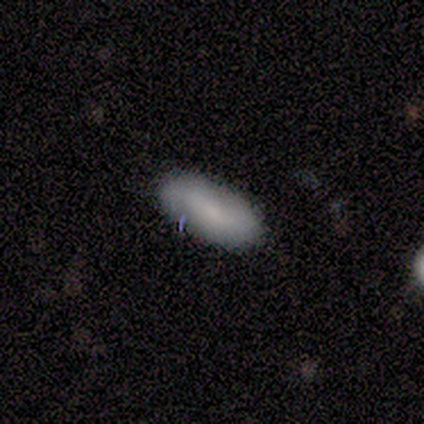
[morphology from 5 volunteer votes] Smooth or featured? smooth (80%)
How rounded? in between (50%, tied with cigar-shaped)
Merging? none (60%)